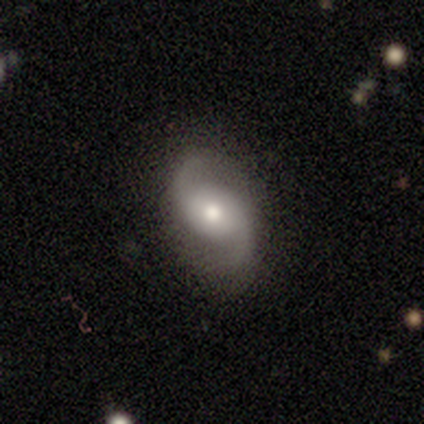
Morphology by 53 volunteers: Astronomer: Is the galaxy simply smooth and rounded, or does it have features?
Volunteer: featured or disk — 89%.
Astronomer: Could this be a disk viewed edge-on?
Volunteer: no — 100%.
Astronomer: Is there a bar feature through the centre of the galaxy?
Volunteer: no — 62%.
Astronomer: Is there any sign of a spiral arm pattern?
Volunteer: yes — 98%.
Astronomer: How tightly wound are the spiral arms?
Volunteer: loose — 57% (runner-up: medium, 37%).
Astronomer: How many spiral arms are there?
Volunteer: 2 — 100%.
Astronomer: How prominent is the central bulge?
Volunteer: moderate — 77%.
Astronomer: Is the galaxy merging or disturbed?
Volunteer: none — 80%.